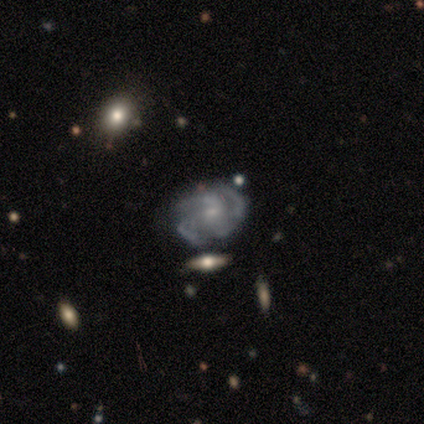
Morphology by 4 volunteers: Volunteers were most divided on "bar" (3-way tie): strong: 33%, weak: 33%, no: 33%; "spiral arm count" (3-way tie): 3: 33%, 4: 33%, can't tell: 33%, 1: 0%, 2: 0%, more than 4: 0%; "bulge size" (3-way tie): moderate: 33%, small: 33%, none: 33%, dominant: 0%, large: 0%. More confident: edge-on disk — no (100%); spiral arms — yes (100%); spiral winding — medium (100%); smooth or featured — featured or disk (75%); merging — none (75%).